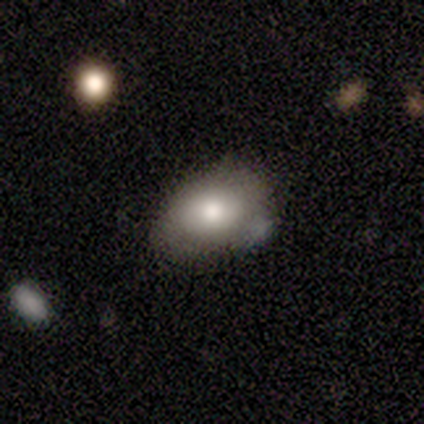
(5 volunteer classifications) Morphology: type=smooth (60%); roundness=in between (100%); merging=none (50%).